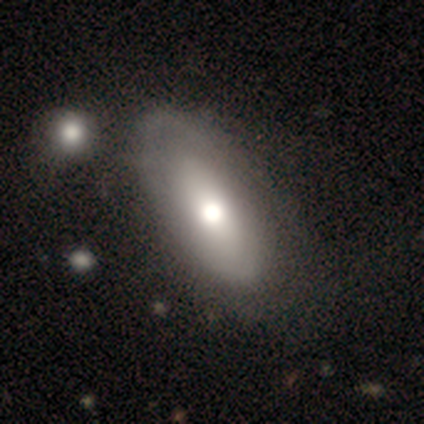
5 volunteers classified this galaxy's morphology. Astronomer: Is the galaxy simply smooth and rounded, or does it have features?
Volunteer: featured or disk — 60% (runner-up: smooth, 40%).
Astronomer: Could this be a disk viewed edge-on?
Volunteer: no — 100%.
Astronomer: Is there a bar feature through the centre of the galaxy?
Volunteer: no — 100%.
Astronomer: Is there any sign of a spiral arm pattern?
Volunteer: no — 67%.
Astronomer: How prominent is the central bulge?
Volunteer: moderate — 67%.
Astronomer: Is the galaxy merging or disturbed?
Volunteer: none — 80%.